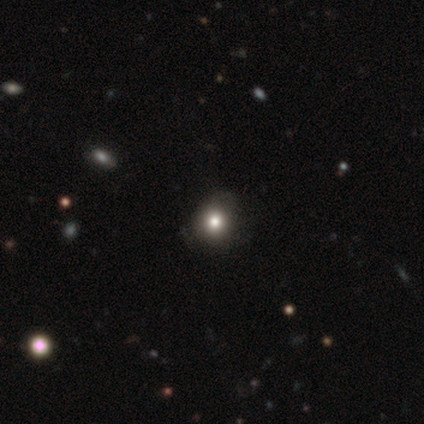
smooth-or-featured: star or artifact: 60% | smooth: 40% | featured or disk: 0%